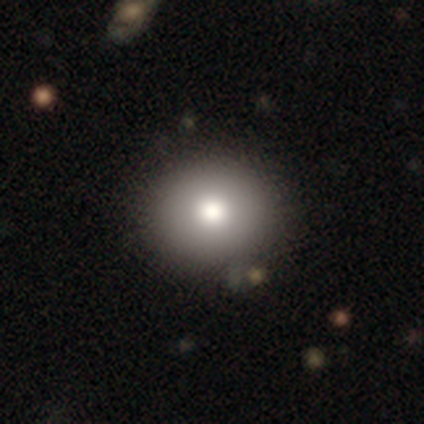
smooth_or_featured: smooth (p=0.74) [alt: featured or disk p=0.23]
how_rounded: round (p=0.76) [alt: in between p=0.24]
merging: none (p=0.58) [alt: minor disturbance p=0.11]